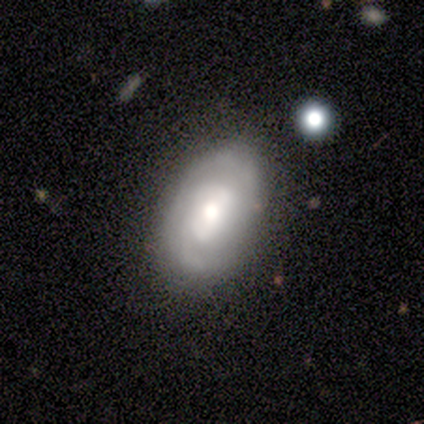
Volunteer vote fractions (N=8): This appears to be a featured or disk galaxy (88%) with a weak bar (71%), 2 (50%) medium (67%) spiral arms (86%) and a moderate central bulge (71%). Merging: none (62%).